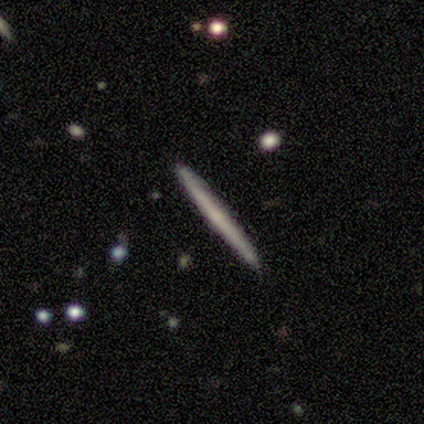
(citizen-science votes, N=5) Smooth or featured?
  - featured or disk: 100% *
  - smooth: 0%
  - star or artifact: 0%
Edge-on disk?
  - yes: 100% *
  - no: 0%
Edge-on bulge?
  - none: 80% *
  - rounded: 20%
  - boxy: 0%
Merging?
  - none: 80% *
  - minor disturbance: 20%
  - major disturbance: 0%
  - merger: 0%